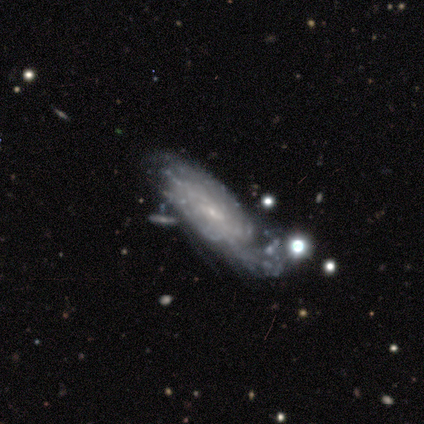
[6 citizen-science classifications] smooth-or-featured: featured or disk: 83% | smooth: 17% | star or artifact: 0%
  disk-edge-on: no: 100% | yes: 0%
    bar: weak: 60% | no: 40% | strong: 0%
    has-spiral-arms: yes: 100% | no: 0%
      spiral-winding: tight: 80% | medium: 20% | loose: 0%
      spiral-arm-count: can't tell: 60% | 1: 20% | 2: 20% | 3: 0% | 4: 0% | more than 4: 0%
    bulge-size: small: 100% | dominant: 0% | large: 0% | moderate: 0% | none: 0%
  merging: major disturbance: 50% | minor disturbance: 33% | none: 17% | merger: 0%